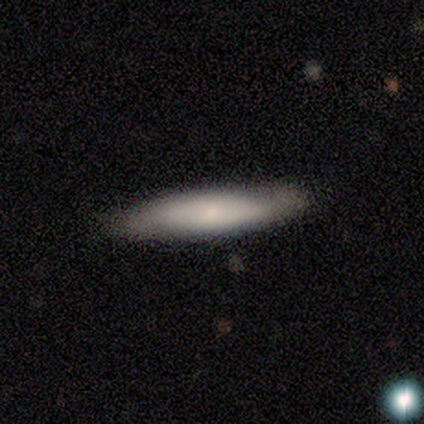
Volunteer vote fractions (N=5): Volunteers were most divided on "bar" (2-way tie): weak: 50%, no: 50%, strong: 0%; "bulge size" (2-way tie): moderate: 50%, small: 50%, dominant: 0%, large: 0%, none: 0%. More confident: spiral arms — no (100%); merging — none (75%); edge-on disk — no (67%); smooth or featured — featured or disk (60%).